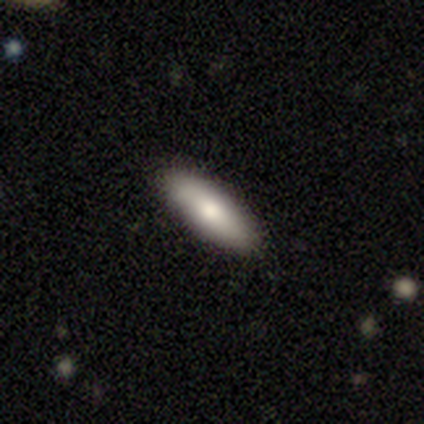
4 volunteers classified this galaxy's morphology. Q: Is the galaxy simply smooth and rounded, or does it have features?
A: smooth — 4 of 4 (100%).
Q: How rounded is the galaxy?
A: in between — 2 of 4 (50%, tied with cigar-shaped).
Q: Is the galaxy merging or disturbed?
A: none — 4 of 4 (100%).